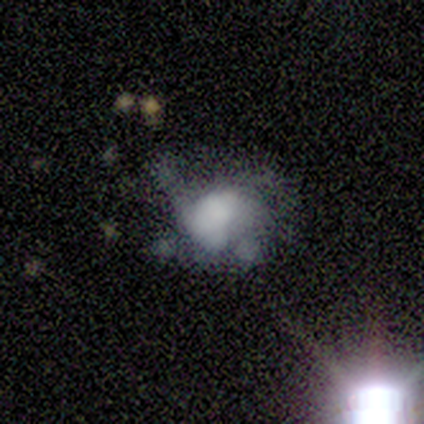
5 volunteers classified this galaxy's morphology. Volunteers were most divided on "bulge size" (3-way tie): large: 33%, small: 33%, none: 33%, dominant: 0%, moderate: 0%. More confident: edge-on disk — no (100%); bar — no (67%); spiral arms — no (67%); smooth or featured — featured or disk (60%); merging — major disturbance (60%).